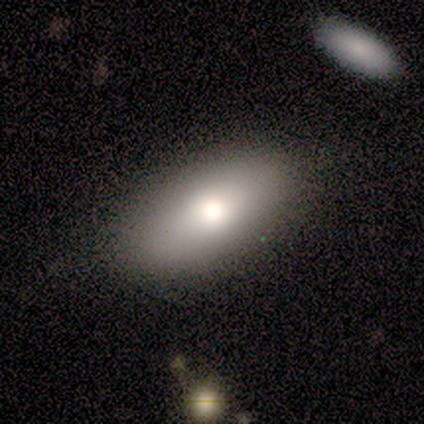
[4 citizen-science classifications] Smooth or featured? 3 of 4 (75%) said smooth. How rounded? 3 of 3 (100%) said in between. Merging? 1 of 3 (33%, tied with minor disturbance and major disturbance) said none.